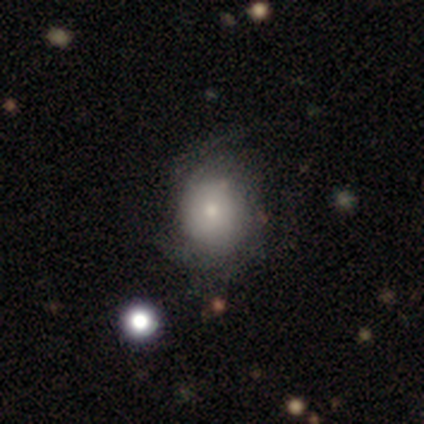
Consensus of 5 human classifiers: Smooth or featured? 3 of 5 (60%) said featured or disk. Edge-on disk? 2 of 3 (67%) said no. Bar? 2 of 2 (100%) said no. Spiral arms? 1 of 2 (50%, tied with no) said yes. Spiral winding? 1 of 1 (100%) said tight. Spiral arm count? 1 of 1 (100%) said can't tell. Bulge size? 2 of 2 (100%) said moderate. Merging? 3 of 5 (60%) said minor disturbance.